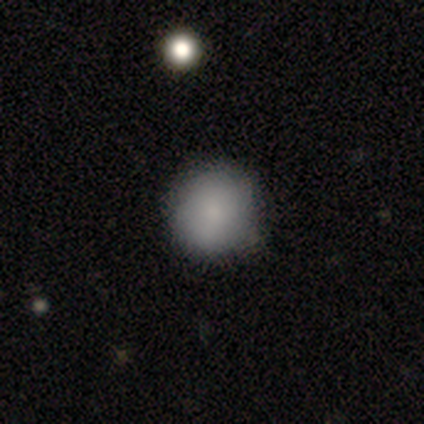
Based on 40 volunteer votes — Q: Smooth or featured?
A: smooth (82%); runner-up: featured or disk (15%)
Q: How rounded?
A: round (85%); runner-up: in between (15%)
Q: Merging?
A: none (54%); runner-up: minor disturbance (8%)